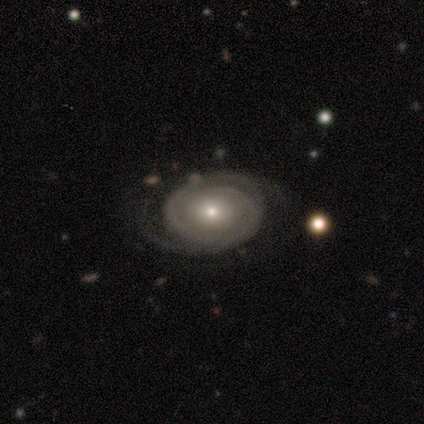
Overall: featured or disk (83%). Edge-on disk: no (100%). Bar: no (70%). Spiral arms: yes (80%). Spiral arm count: 2 (88%). Spiral winding: tight (88%). Bulge size: small (70%; moderate 30%). Merging: none (82%).